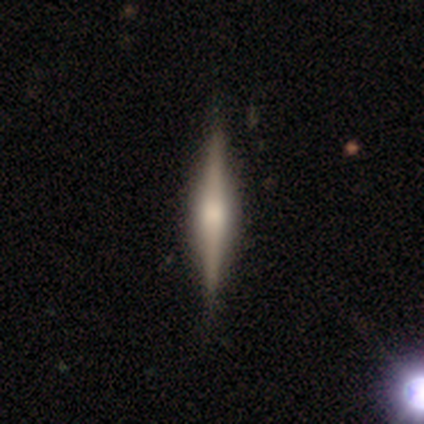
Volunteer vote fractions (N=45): Smooth or featured: featured or disk — 76% (smooth — 20%)
Edge-on disk: yes — 97% (no — 3%)
Edge-on bulge: rounded — 76% (boxy — 21%)
Merging: none — 88% (minor disturbance — 9%)